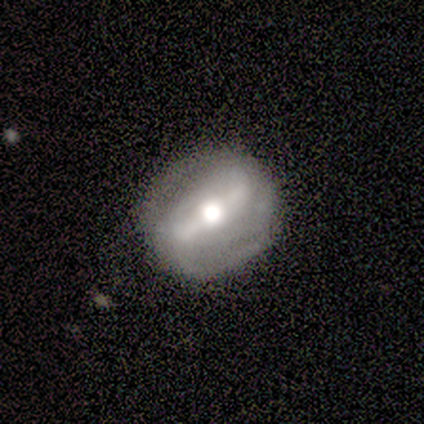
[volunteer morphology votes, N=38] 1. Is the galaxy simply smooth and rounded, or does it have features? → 87% featured or disk, 11% smooth, 3% star or artifact.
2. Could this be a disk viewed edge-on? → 79% no, 21% yes.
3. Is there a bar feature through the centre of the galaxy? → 54% strong, 27% no, 19% weak.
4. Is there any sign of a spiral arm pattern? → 65% yes, 35% no.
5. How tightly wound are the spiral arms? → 41% tight, 29% medium, 29% loose.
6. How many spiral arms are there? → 71% 2, 24% can't tell, 6% 3, 0% 1, 0% 4, 0% more than 4.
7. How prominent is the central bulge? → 46% moderate, 38% large, 8% dominant, 8% small, 0% none.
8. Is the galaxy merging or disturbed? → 76% none, 14% minor disturbance, 8% major disturbance, 3% merger.